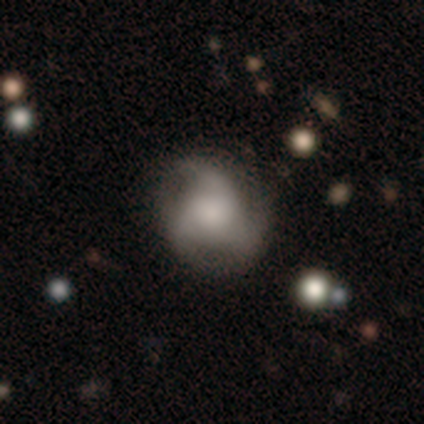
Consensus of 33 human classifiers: Volunteers were most divided on "spiral winding": loose: 46%, medium: 38%, tight: 15%. Remaining: edge-on disk — no (100%); bar — no (89%); spiral arm count — 3 (85%); spiral arms — yes (68%); smooth or featured — featured or disk (58%); merging — none (53%); bulge size — large (42%).